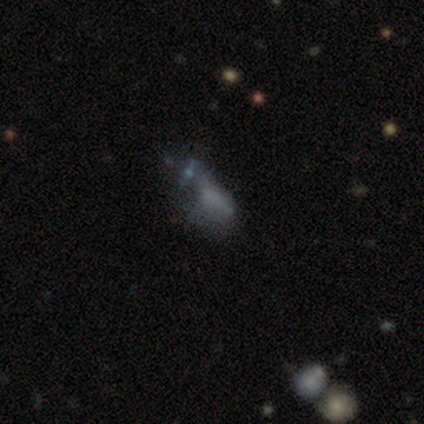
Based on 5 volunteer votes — Volunteers were most divided on "smooth or featured": star or artifact: 60%, smooth: 20%, featured or disk: 20%.